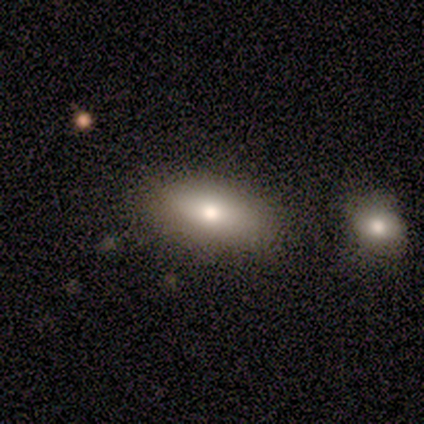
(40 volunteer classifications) Smooth or featured? smooth (80%)
How rounded? in between (91%)
Merging? none (61%)